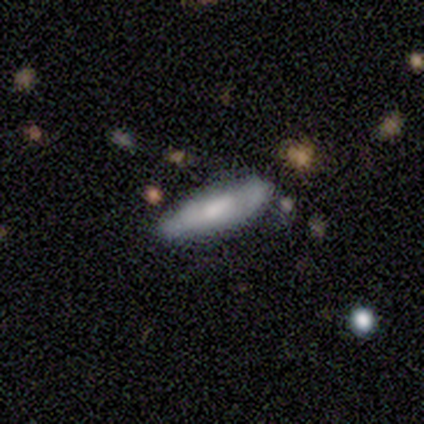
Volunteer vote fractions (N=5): This is likely a smooth galaxy (60%). How rounded: clearly in between (100%). Merging: clearly none (80%).